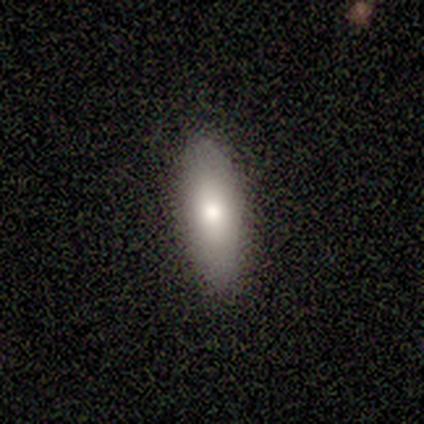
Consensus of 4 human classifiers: Smooth or featured? 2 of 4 (50%) said smooth. How rounded? 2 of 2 (100%) said in between. Merging? 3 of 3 (100%) said none.